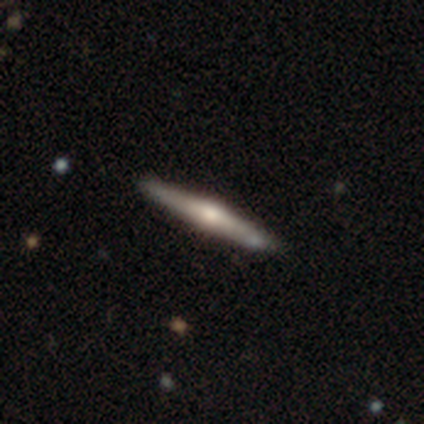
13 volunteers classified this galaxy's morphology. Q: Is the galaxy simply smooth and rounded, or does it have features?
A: featured or disk — 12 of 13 (92%).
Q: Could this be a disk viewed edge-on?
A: yes — 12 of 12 (100%).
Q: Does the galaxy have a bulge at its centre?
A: rounded — 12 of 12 (100%).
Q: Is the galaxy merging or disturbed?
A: none — 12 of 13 (92%).